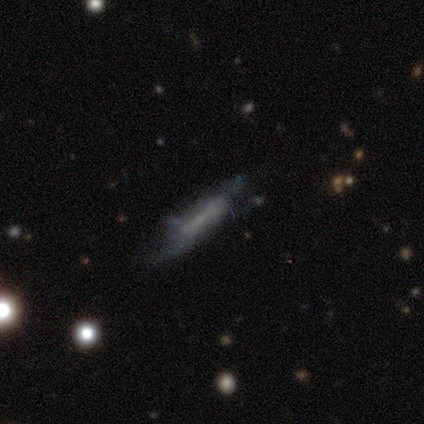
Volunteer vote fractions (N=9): A smooth galaxy with no disk features (56%) that is cigar-shaped (80%). Merging: none (50%).